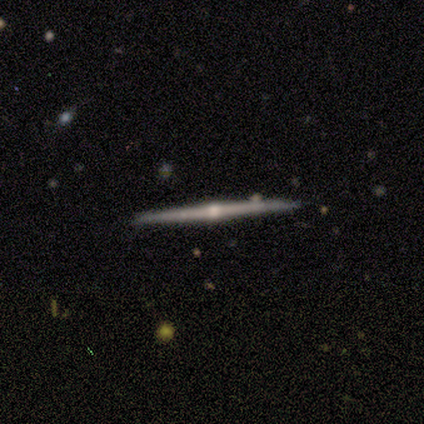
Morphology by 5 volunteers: Smooth or featured?
  - featured or disk: 80% *
  - smooth: 20%
  - star or artifact: 0%
Edge-on disk?
  - yes: 100% *
  - no: 0%
Edge-on bulge?
  - rounded: 100% *
  - boxy: 0%
  - none: 0%
Merging?
  - none: 100% *
  - minor disturbance: 0%
  - major disturbance: 0%
  - merger: 0%